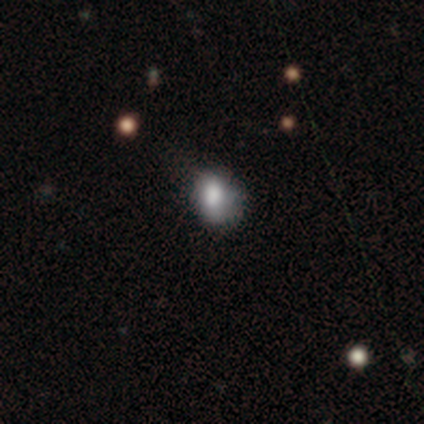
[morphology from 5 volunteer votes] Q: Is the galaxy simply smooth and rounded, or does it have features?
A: smooth — 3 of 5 (60%).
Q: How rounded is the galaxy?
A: round — 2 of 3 (67%).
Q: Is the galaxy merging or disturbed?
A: none — 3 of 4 (75%).